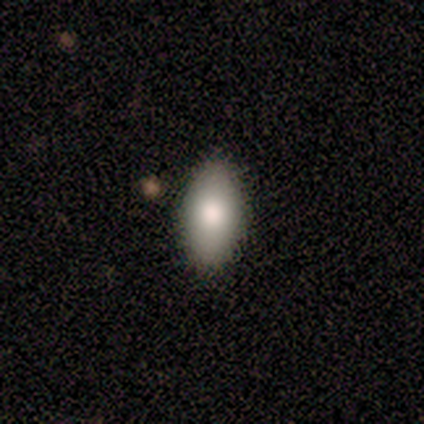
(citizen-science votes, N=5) Consensus on every question: smooth or featured — smooth (100%); how rounded — in between (100%); merging — none (100%).